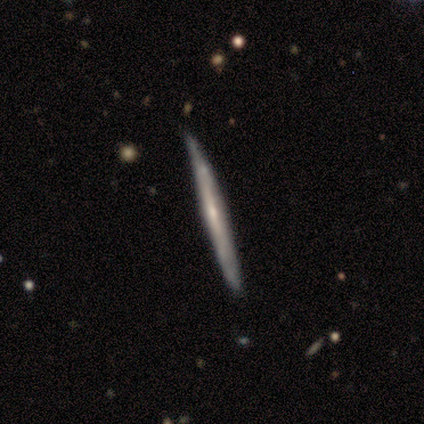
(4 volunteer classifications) A featured or disk galaxy (100%) viewed edge-on (100%) with no central bulge (75%).

Vote fractions:
- Smooth or featured? featured or disk: 100% / smooth: 0% / star or artifact: 0%
- Edge-on disk? yes: 100% / no: 0%
- Edge-on bulge? none: 75% / rounded: 25% / boxy: 0%
- Merging? none: 50% (tied) / minor disturbance: 50% (tied) / major disturbance: 0% / merger: 0%